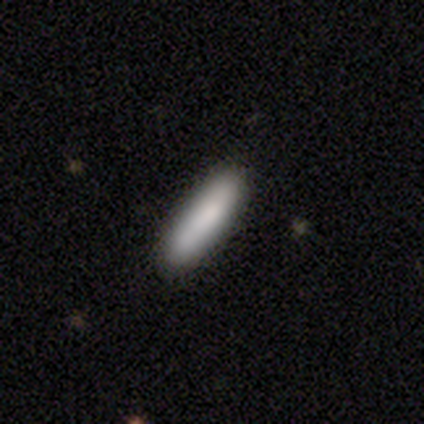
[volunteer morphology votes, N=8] Volunteers were most divided on "how rounded" (2-way tie): in between: 50%, cigar-shaped: 50%, round: 0%. More confident: merging — none (100%); smooth or featured — smooth (75%).